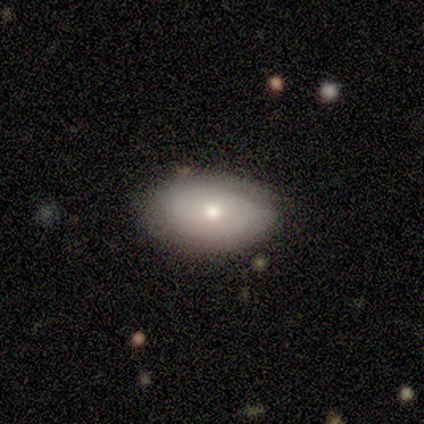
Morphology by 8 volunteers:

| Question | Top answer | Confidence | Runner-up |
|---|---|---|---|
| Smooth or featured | smooth | 62% | featured or disk (38%) |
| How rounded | in between | 100% | — |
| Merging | none | 50% | tied: minor disturbance (50%) |